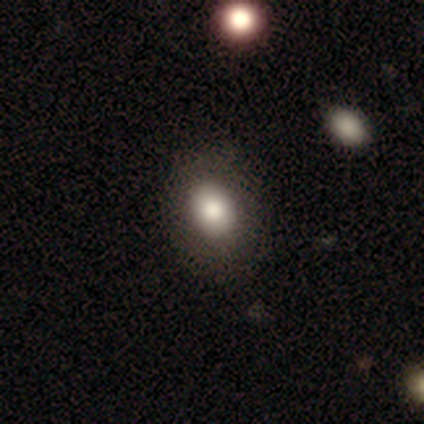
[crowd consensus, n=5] smooth_or_featured: smooth (p=0.60) [alt: featured or disk p=0.20]
how_rounded: in between (p=0.67) [alt: round p=0.33]
merging: none (p=1.00)